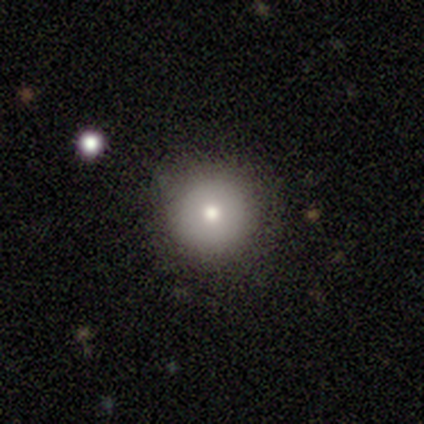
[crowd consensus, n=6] smooth 83%, featured or disk 17%, star or artifact 0%. Down the decision tree: how rounded — round (100%); merging — none (100%).